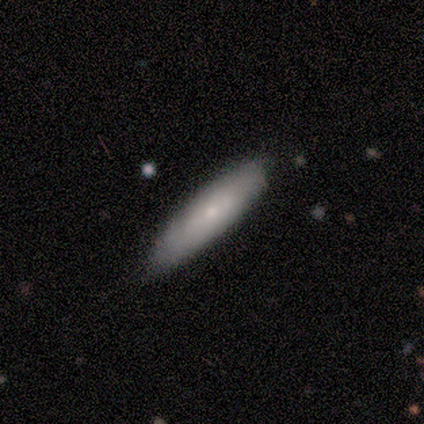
smooth_or_featured: smooth (p=1.00)
how_rounded: cigar-shaped (p=1.00)
merging: none (p=1.00)